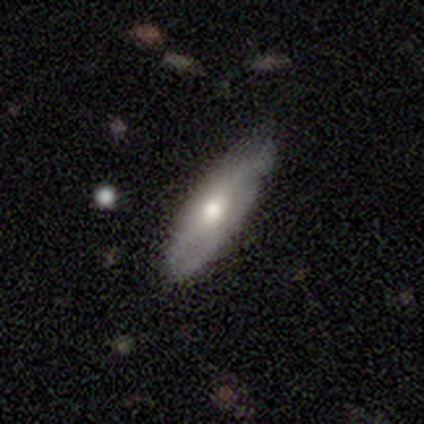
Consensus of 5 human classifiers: A smooth galaxy with no disk features (60%) that is in between round and cigar-shaped (67%).

Vote fractions:
- Smooth or featured? smooth: 60% / featured or disk: 20% / star or artifact: 20%
- How rounded? in between: 67% / cigar-shaped: 33% / round: 0%
- Merging? none: 75% / minor disturbance: 25% / major disturbance: 0% / merger: 0%